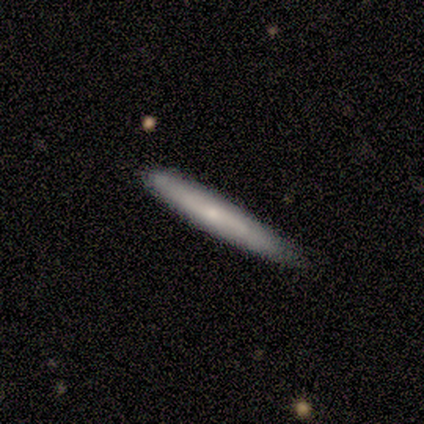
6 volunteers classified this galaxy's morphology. Smooth or featured?
  - smooth: 67% *
  - featured or disk: 33%
  - star or artifact: 0%
How rounded?
  - cigar-shaped: 100% *
  - round: 0%
  - in between: 0%
Merging?
  - none: 83% *
  - merger: 17%
  - minor disturbance: 0%
  - major disturbance: 0%